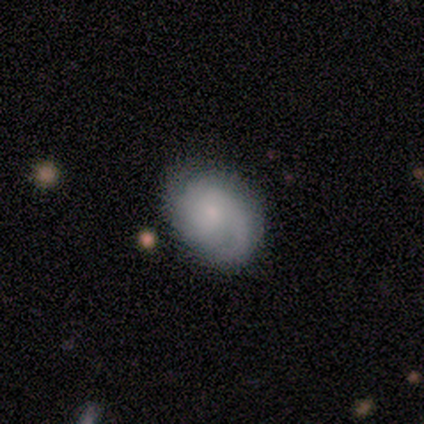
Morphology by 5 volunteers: Smooth or featured?
  - featured or disk: 60% *
  - smooth: 40%
  - star or artifact: 0%
Edge-on disk?
  - no: 100% *
  - yes: 0%
Bar?
  - no: 67% *
  - strong: 33%
  - weak: 0%
Spiral arms?
  - yes: 67% *
  - no: 33%
Spiral winding?
  - tight: 50% * (tied)
  - medium: 50% * (tied)
  - loose: 0%
Spiral arm count?
  - 2: 50% * (tied)
  - can't tell: 50% * (tied)
  - 1: 0%
  - 3: 0%
  - 4: 0%
  - more than 4: 0%
Bulge size?
  - small: 67% *
  - moderate: 33%
  - dominant: 0%
  - large: 0%
  - none: 0%
Merging?
  - none: 80% *
  - minor disturbance: 20%
  - major disturbance: 0%
  - merger: 0%